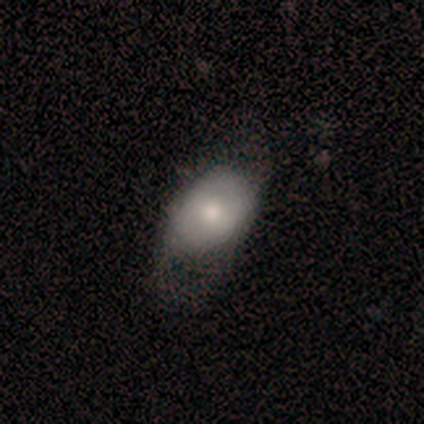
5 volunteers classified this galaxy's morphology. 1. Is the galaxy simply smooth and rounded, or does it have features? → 60% smooth, 40% featured or disk, 0% star or artifact.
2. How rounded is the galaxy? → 100% in between, 0% round, 0% cigar-shaped.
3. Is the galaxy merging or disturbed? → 40% none (tied), 40% minor disturbance (tied), 20% major disturbance, 0% merger.